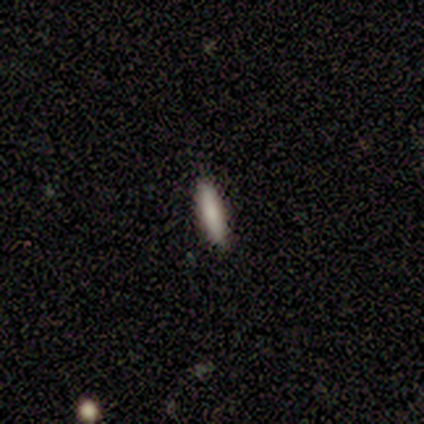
smooth 67%, star or artifact 33%, featured or disk 0%. Down the decision tree: how rounded — cigar-shaped (100%); merging — none (100%).